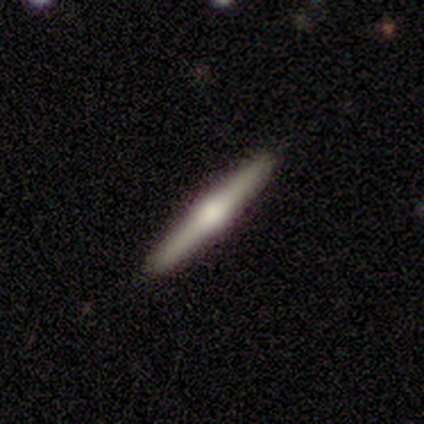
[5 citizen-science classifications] Overall: featured or disk (100%). Edge-on disk: yes (100%). Edge-on bulge: rounded (100%). Merging: none (100%).